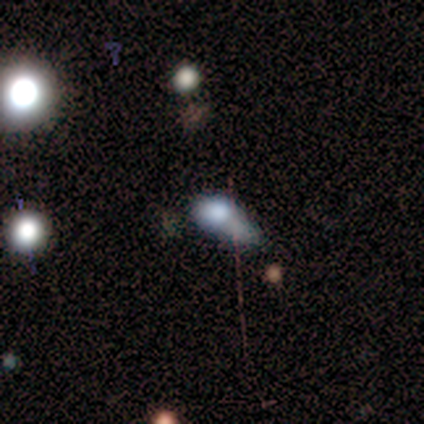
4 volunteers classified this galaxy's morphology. smooth 50% (tied), star or artifact 50% (tied), featured or disk 0%. Down the decision tree: how rounded — in between (50%, tied with cigar-shaped); merging — minor disturbance (50%, tied with major disturbance).